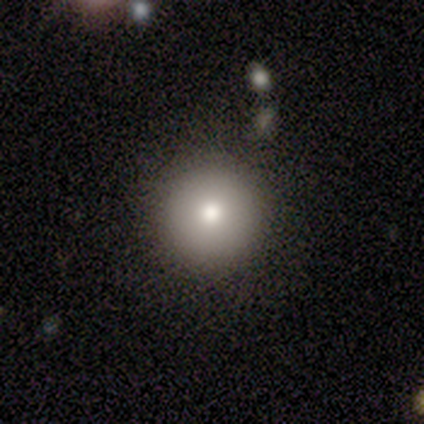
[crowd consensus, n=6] A smooth galaxy with no disk features (100%) that is round (100%).

Vote fractions:
- Smooth or featured? smooth: 100% / featured or disk: 0% / star or artifact: 0%
- How rounded? round: 100% / in between: 0% / cigar-shaped: 0%
- Merging? none: 100% / minor disturbance: 0% / major disturbance: 0% / merger: 0%